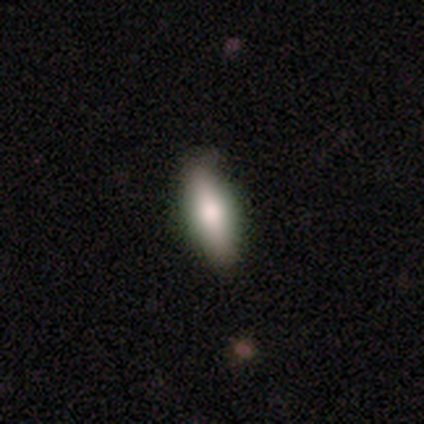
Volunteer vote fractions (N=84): smooth-or-featured: smooth: 58% | featured or disk: 27% | star or artifact: 14%
  how-rounded: in between: 63% | cigar-shaped: 37% | round: 0%
  merging: none: 75% | minor disturbance: 18% | major disturbance: 6% | merger: 1%